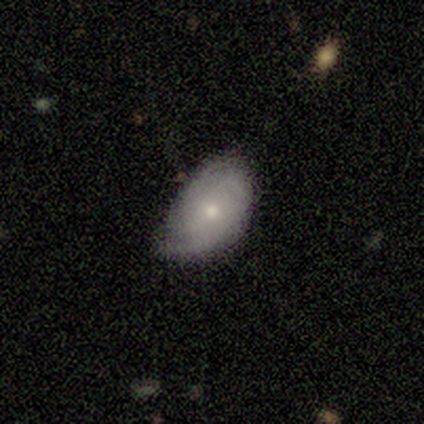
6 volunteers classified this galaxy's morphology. Smooth or featured: smooth — 67% (featured or disk — 33%)
How rounded: in between — 100%
Merging: none — 67% (minor disturbance — 33%)